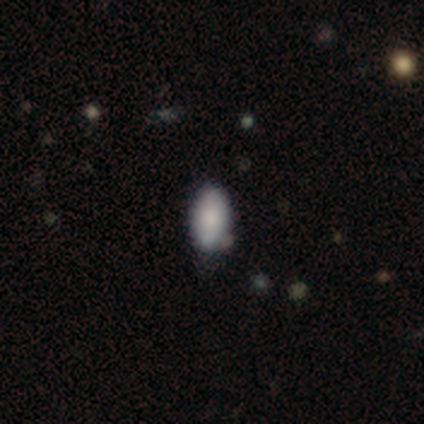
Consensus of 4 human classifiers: Smooth or featured?
  - smooth: 75% *
  - star or artifact: 25%
  - featured or disk: 0%
How rounded?
  - in between: 100% *
  - round: 0%
  - cigar-shaped: 0%
Merging?
  - none: 67% *
  - minor disturbance: 33%
  - major disturbance: 0%
  - merger: 0%